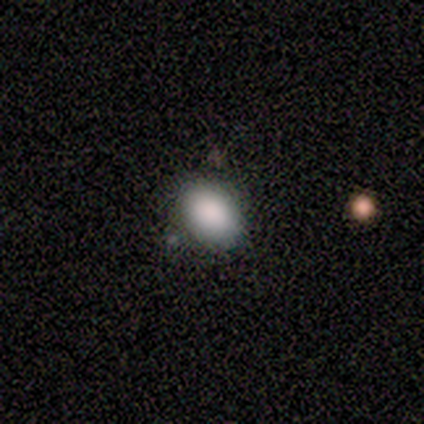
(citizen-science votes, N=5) Consensus on every question: smooth or featured — smooth (100%); how rounded — in between (100%); merging — none (100%).